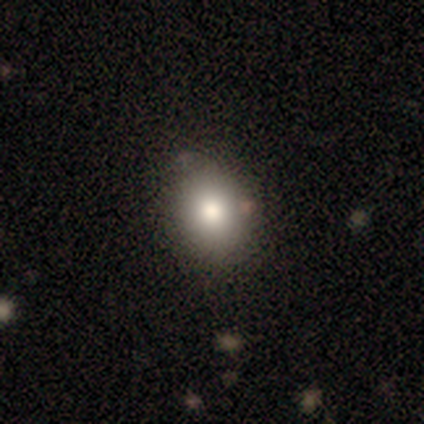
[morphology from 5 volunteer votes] Q: Smooth or featured?
A: smooth (80%); runner-up: star or artifact (20%)
Q: How rounded?
A: round (75%); runner-up: in between (25%)
Q: Merging?
A: none (100%)